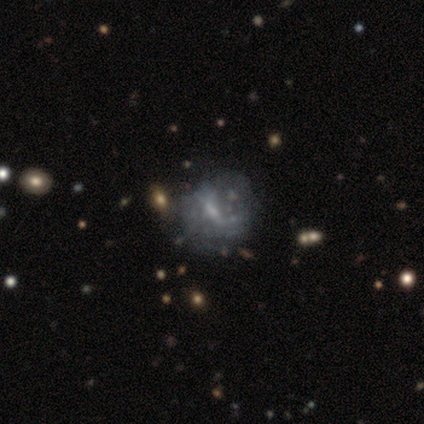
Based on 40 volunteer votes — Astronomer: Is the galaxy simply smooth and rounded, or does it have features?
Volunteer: featured or disk — 62%.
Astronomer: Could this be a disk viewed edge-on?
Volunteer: no — 96%.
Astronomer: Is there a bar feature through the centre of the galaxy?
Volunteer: no — 42% (runner-up: weak, 38%).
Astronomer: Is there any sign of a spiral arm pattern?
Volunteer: no — 62%.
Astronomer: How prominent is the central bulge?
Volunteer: small — 67%.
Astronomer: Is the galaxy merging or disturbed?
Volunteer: none — 39% (runner-up: minor disturbance, 21%).